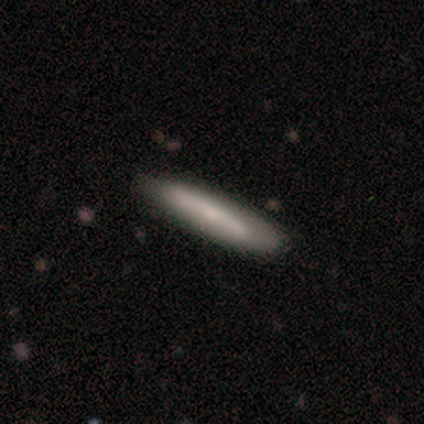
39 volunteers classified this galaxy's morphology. smooth_or_featured: smooth (p=0.56) [alt: featured or disk p=0.41]
how_rounded: cigar-shaped (p=0.91) [alt: in between p=0.09]
merging: none (p=0.50) [alt: major disturbance p=0.05]